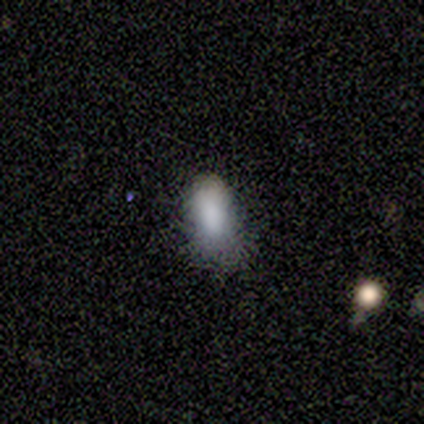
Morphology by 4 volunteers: Overall: smooth (100%). How rounded: in between (100%). Merging: none (75%).